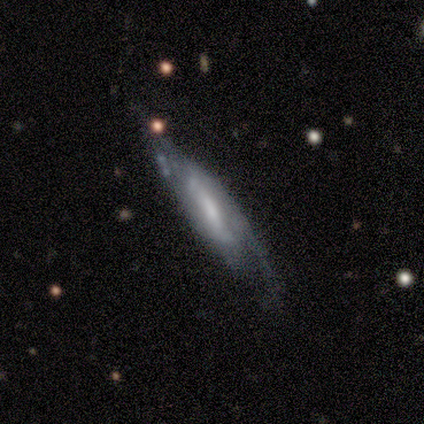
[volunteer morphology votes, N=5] Smooth or featured? featured or disk (80%)
Edge-on disk? yes (50%, tied with no)
Edge-on bulge? boxy (50%, tied with none)
Merging? none (80%)